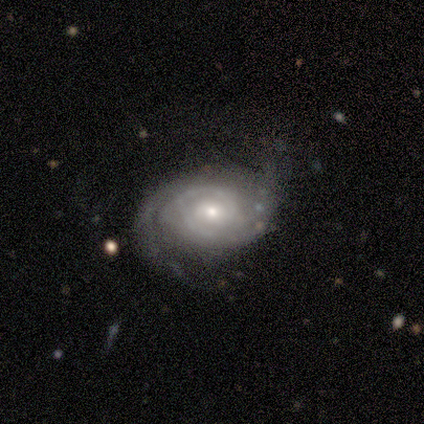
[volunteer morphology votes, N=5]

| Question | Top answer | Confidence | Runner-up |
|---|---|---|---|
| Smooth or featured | featured or disk | 60% | smooth (40%) |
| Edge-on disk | no | 100% | — |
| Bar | no | 67% | weak (33%) |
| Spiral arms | yes | 100% | — |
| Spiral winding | tight | 67% | medium (33%) |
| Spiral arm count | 2 | 67% | can't tell (33%) |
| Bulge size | moderate | 67% | small (33%) |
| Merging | none | 60% | minor disturbance (40%) |